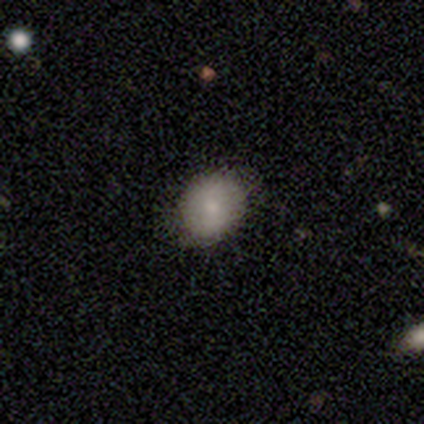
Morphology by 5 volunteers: Q: Smooth or featured?
A: smooth (80%); runner-up: featured or disk (20%)
Q: How rounded?
A: round (75%); runner-up: in between (25%)
Q: Merging?
A: none (60%); runner-up: minor disturbance (40%)